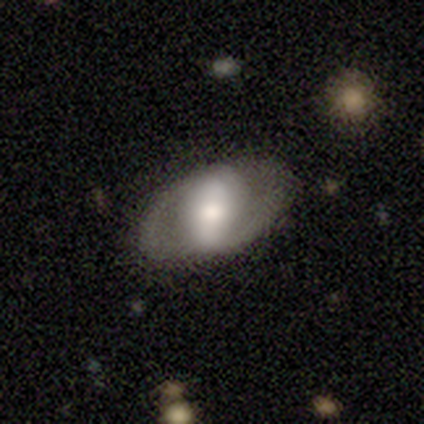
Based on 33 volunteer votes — This appears to be a featured or disk galaxy (52%) with a strong bar (47%), 2 (80%) tight (60%) spiral arms (59%) and a large central bulge (47%). Merging: none (69%).